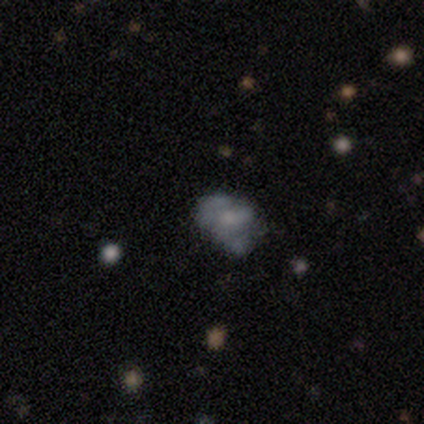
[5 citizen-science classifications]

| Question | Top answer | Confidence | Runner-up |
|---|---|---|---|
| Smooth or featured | smooth | 60% | featured or disk (20%) |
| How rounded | in between | 100% | — |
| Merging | none | 50% | tied: minor disturbance (50%) |